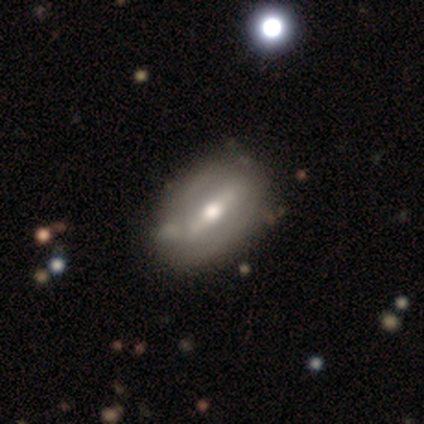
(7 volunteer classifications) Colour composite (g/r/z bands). It shows a featured or disk galaxy (86%) with a strong bar (75%), tight (100%) spiral arms (50%, tied with no) and a large central bulge (50%). Merging: none (86%).